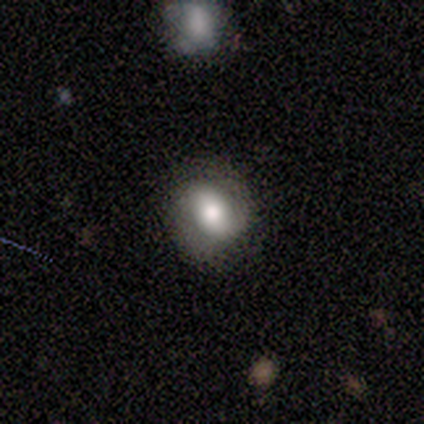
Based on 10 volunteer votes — Smooth or featured: smooth — 60% (featured or disk — 40%)
How rounded: round — 50% (tied with in between — 50%)
Merging: none — 80% (minor disturbance — 20%)